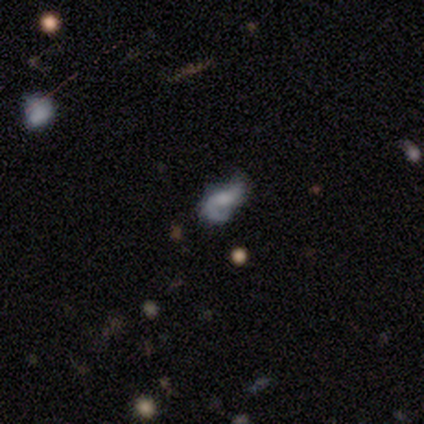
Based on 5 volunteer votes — A featured or disk galaxy (80%) with no bar (100%), 2 (100%) loose (75%) spiral arms (100%) and no central bulge (75%). Merging: none (60%).